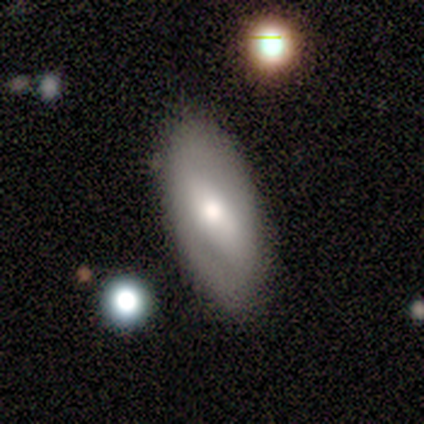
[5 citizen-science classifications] Morphology: type=smooth (60%); roundness=in between (100%); merging=none (100%).